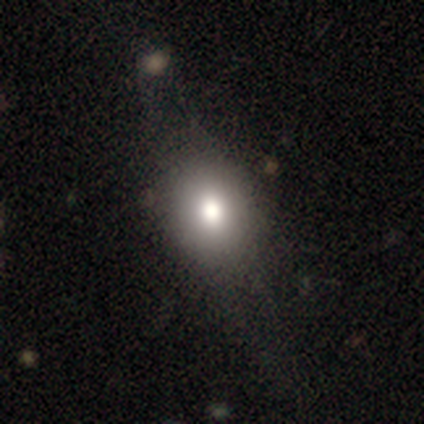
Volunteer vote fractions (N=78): This appears to be a smooth galaxy with no disk features (67%) that is round (52%). Merging: none (30%).